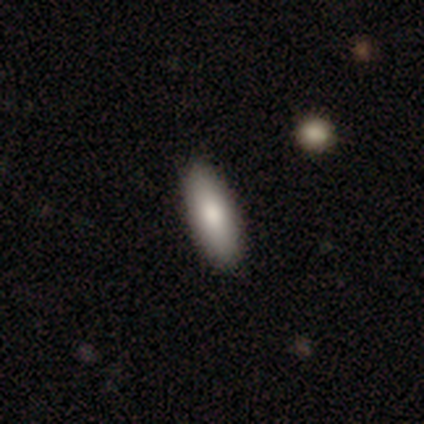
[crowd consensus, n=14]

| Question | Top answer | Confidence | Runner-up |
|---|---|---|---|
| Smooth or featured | smooth | 93% | featured or disk (7%) |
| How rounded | cigar-shaped | 54% | in between (46%) |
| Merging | none | 93% | major disturbance (7%) |